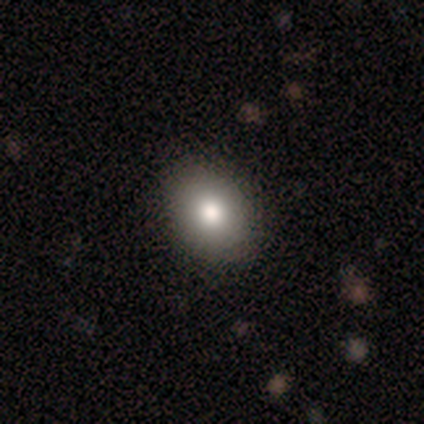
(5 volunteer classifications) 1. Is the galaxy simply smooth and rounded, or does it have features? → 100% smooth, 0% featured or disk, 0% star or artifact.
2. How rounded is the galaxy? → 60% in between, 40% round, 0% cigar-shaped.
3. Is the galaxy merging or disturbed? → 80% none, 20% minor disturbance, 0% major disturbance, 0% merger.